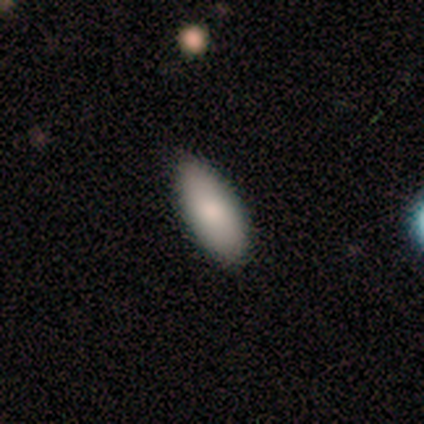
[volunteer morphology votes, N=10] A smooth galaxy with no disk features (100%) that is in between round and cigar-shaped (90%).

Vote fractions:
- Smooth or featured? smooth: 100% / featured or disk: 0% / star or artifact: 0%
- How rounded? in between: 90% / cigar-shaped: 10% / round: 0%
- Merging? none: 100% / minor disturbance: 0% / major disturbance: 0% / merger: 0%